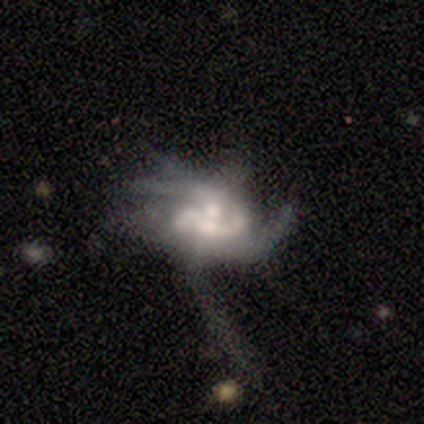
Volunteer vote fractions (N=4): This is clearly a featured or disk galaxy (100%). It is clearly not viewed edge-on (100%). Bar: clearly no (100%). Spiral arm pattern: likely yes (75%). Spiral arm count: likely 1 (67%). Spiral winding: clearly medium (100%). Central bulge: possibly moderate (50%, tied with small). Merging: possibly none (50%).